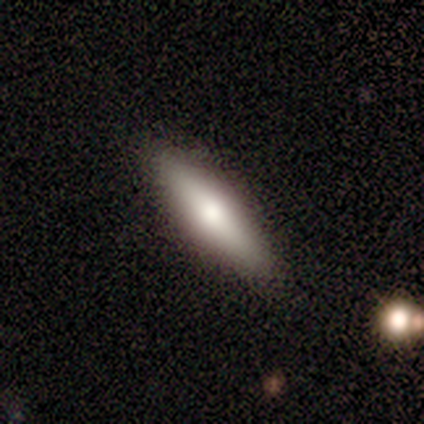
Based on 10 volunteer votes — This is clearly a smooth galaxy (80%). How rounded: likely in between (62%). Merging: clearly none (90%).